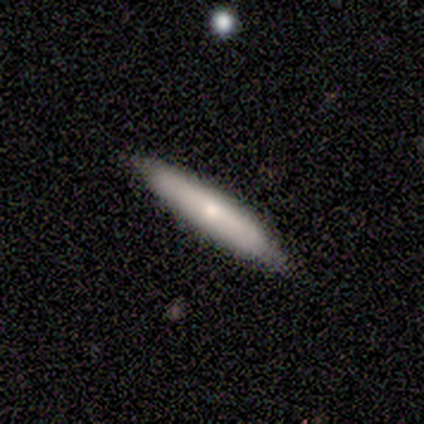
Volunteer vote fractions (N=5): A smooth galaxy with no disk features (40%, tied with featured or disk) that is cigar-shaped (100%). Merging: none (50%, tied with minor disturbance).